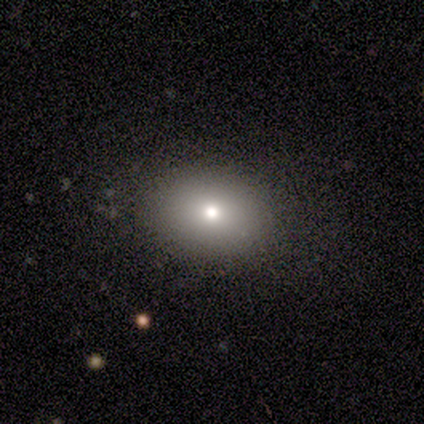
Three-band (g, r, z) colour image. It shows a smooth galaxy with no disk features (80%) that is in between round and cigar-shaped (75%). Merging: none (100%).